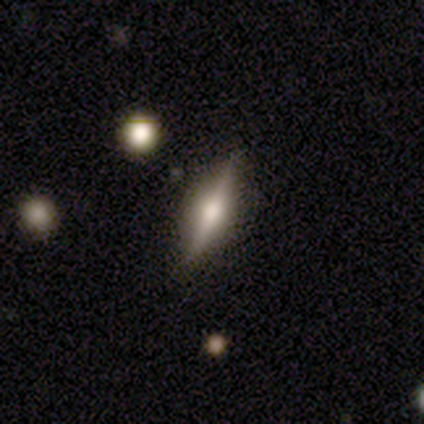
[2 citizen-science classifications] This is clearly a featured or disk galaxy (100%). It is clearly viewed edge-on (100%). Edge-on bulge: clearly rounded (100%). Merging: clearly none (100%).